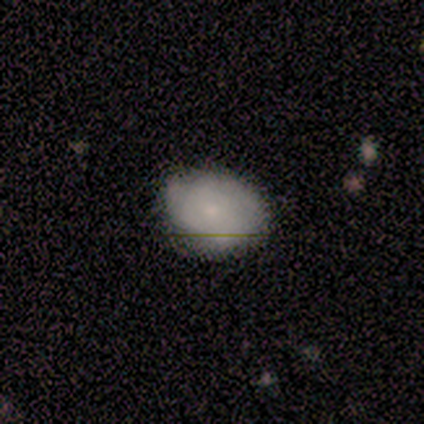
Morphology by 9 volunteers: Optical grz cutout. It shows a smooth galaxy with no disk features (78%) that is in between round and cigar-shaped (57%). Merging: none (78%).